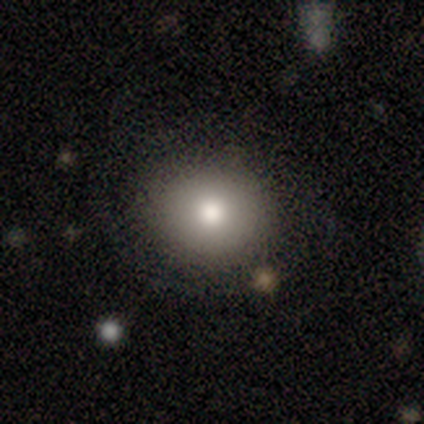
Smooth or featured?
  - smooth: 100% *
  - featured or disk: 0%
  - star or artifact: 0%
How rounded?
  - round: 80% *
  - in between: 20%
  - cigar-shaped: 0%
Merging?
  - none: 100% *
  - minor disturbance: 0%
  - major disturbance: 0%
  - merger: 0%